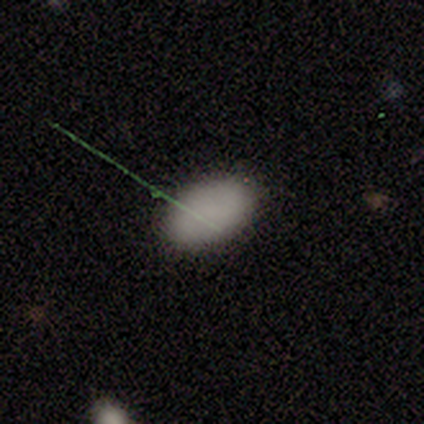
Q: Smooth or featured?
A: smooth (80%); runner-up: featured or disk (20%)
Q: How rounded?
A: in between (100%)
Q: Merging?
A: none (80%); runner-up: major disturbance (20%)